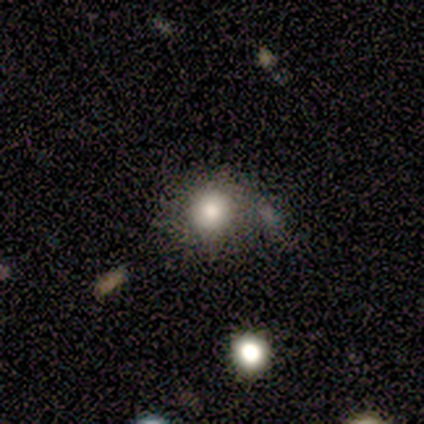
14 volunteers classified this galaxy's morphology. Volunteers were most divided on "merging": none: 58%, merger: 33%, minor disturbance: 8%, major disturbance: 0%. More confident: how rounded — round (90%); smooth or featured — smooth (71%).